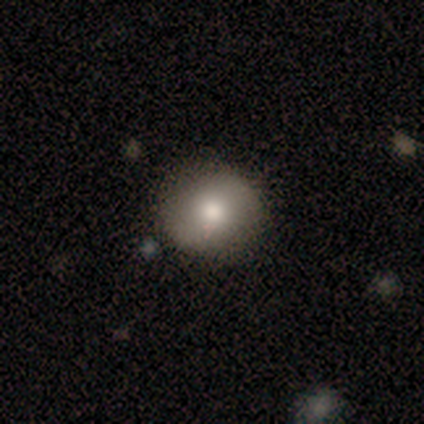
Smooth or featured: smooth — 80% (featured or disk — 20%)
How rounded: round — 100%
Merging: none — 80% (minor disturbance — 20%)